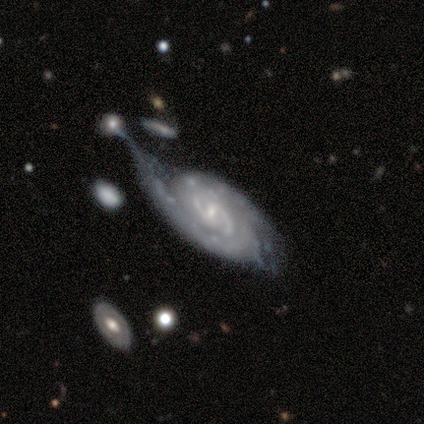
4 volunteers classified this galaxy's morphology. This appears to be a featured or disk galaxy (50%) with a weak bar (50%, tied with no), 2 (100%) medium (100%) spiral arms (100%) and a small central bulge (100%). Merging: none (33%, tied with minor disturbance and major disturbance).